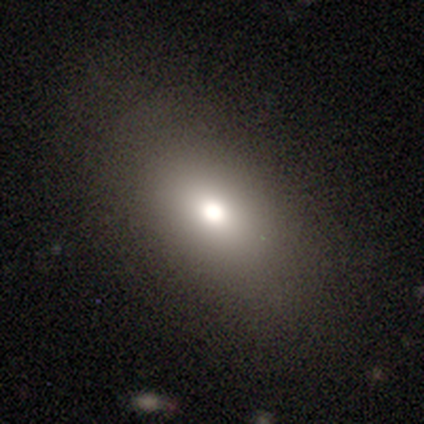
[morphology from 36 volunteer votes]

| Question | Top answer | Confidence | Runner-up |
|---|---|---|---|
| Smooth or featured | smooth | 78% | featured or disk (14%) |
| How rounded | in between | 79% | round (18%) |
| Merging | none | 76% | minor disturbance (12%) |